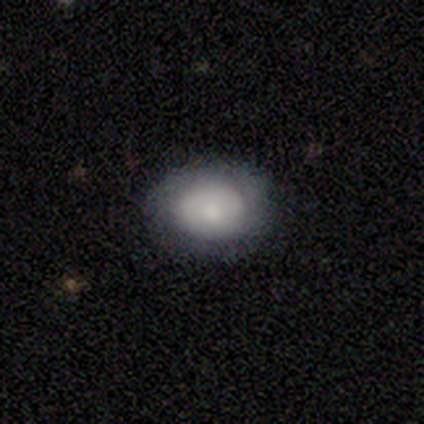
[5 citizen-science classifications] Smooth or featured? 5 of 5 (100%) said smooth. How rounded? 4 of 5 (80%) said in between. Merging? 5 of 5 (100%) said none.